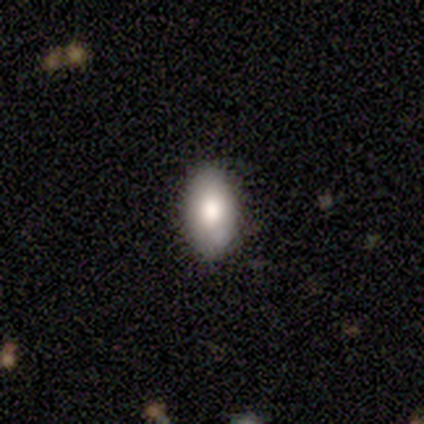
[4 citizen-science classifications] This is clearly a smooth galaxy (100%). How rounded: clearly in between (100%). Merging: likely none (75%).